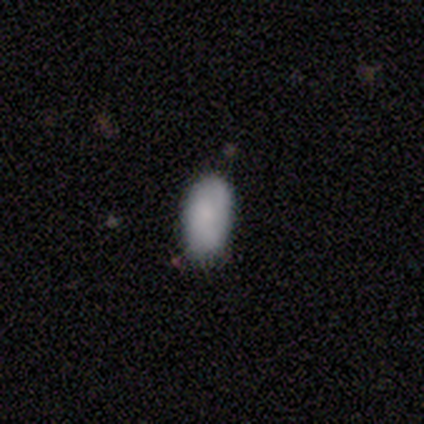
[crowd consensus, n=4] A smooth galaxy with no disk features (75%) that is in between round and cigar-shaped (67%).

Vote fractions:
- Smooth or featured? smooth: 75% / star or artifact: 25% / featured or disk: 0%
- How rounded? in between: 67% / round: 33% / cigar-shaped: 0%
- Merging? none: 67% / minor disturbance: 33% / major disturbance: 0% / merger: 0%